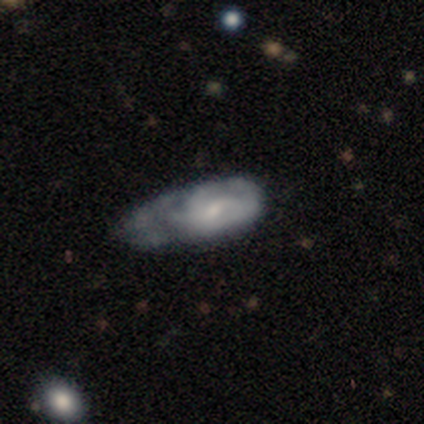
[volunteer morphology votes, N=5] This appears to be a featured or disk galaxy (60%) with a weak bar (67%), 3 (50%, tied with can't tell) tight (50%, tied with medium) spiral arms (67%) and a small central bulge (67%). Merging: none (40%, tied with minor disturbance).